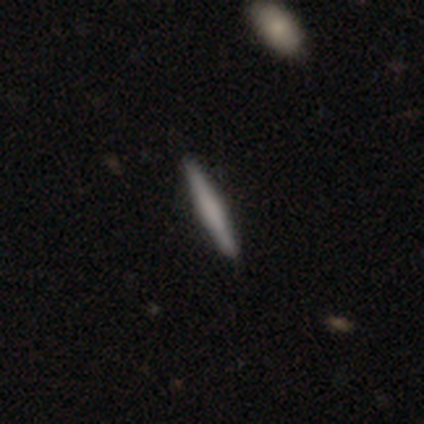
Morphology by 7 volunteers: Smooth or featured? smooth (86%)
How rounded? cigar-shaped (100%)
Merging? none (86%)